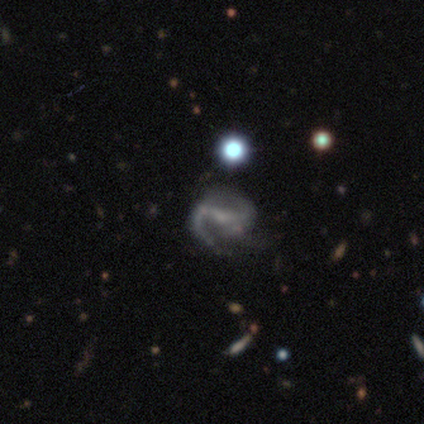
Smooth or featured?
  - featured or disk: 100% *
  - smooth: 0%
  - star or artifact: 0%
Edge-on disk?
  - no: 100% *
  - yes: 0%
Bar?
  - strong: 40% * (tied)
  - no: 40% * (tied)
  - weak: 20%
Spiral arms?
  - yes: 100% *
  - no: 0%
Spiral winding?
  - medium: 60% *
  - loose: 40%
  - tight: 0%
Spiral arm count?
  - 2: 60% *
  - 1: 20%
  - 3: 20%
  - 4: 0%
  - more than 4: 0%
  - can't tell: 0%
Bulge size?
  - none: 80% *
  - small: 20%
  - dominant: 0%
  - large: 0%
  - moderate: 0%
Merging?
  - none: 80% *
  - major disturbance: 20%
  - minor disturbance: 0%
  - merger: 0%